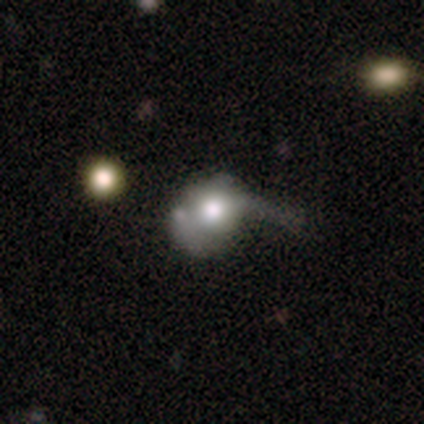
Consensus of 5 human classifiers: This appears to be a smooth galaxy with no disk features (40%, tied with featured or disk) that is round (100%). Merging: none (75%).